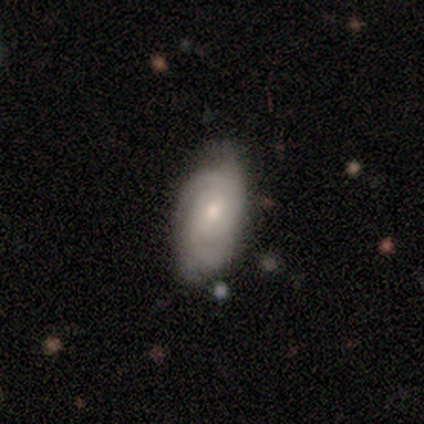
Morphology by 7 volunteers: Smooth or featured? featured or disk (71%)
Edge-on disk? no (100%)
Bar? no (60%)
Spiral arms? yes (100%)
Spiral winding? tight (60%)
Spiral arm count? 2 (40%, tied with can't tell)
Bulge size? small (60%)
Merging? none (43%, tied with minor disturbance)